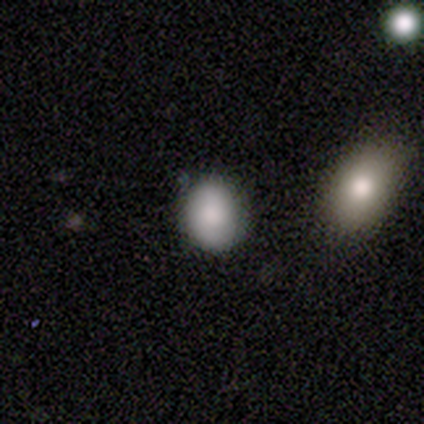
This appears to be a smooth galaxy with no disk features (77%) that is round (60%). Merging: none (83%).